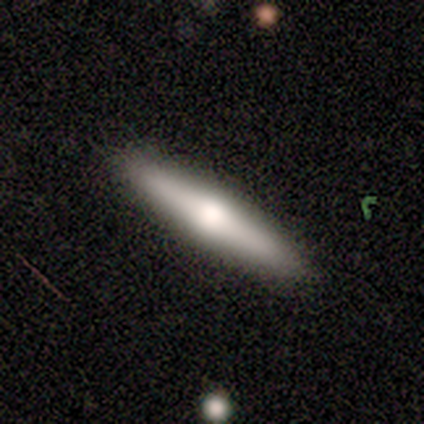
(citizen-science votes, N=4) smooth_or_featured: featured or disk (p=0.75) [alt: smooth p=0.25]
disk_edge_on: yes (p=1.00)
edge_on_bulge: rounded (p=1.00)
merging: none (p=0.75) [alt: minor disturbance p=0.25]